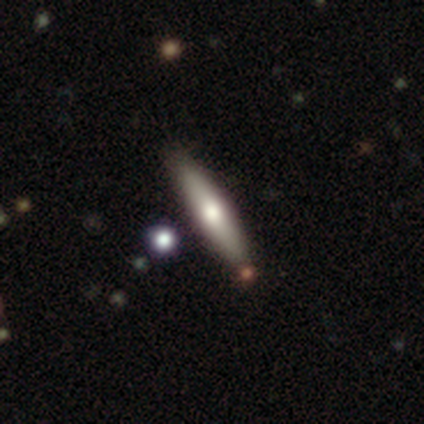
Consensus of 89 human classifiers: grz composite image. It shows a smooth galaxy with no disk features (57%) that is cigar-shaped (90%). Merging: none (79%).